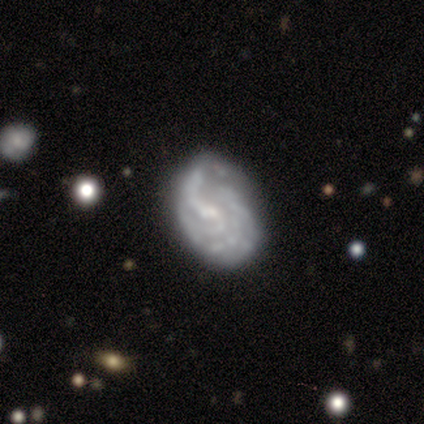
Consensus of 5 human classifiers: A featured or disk galaxy (100%) with no bar (60%), 4 (50%) tight (50%) spiral arms (80%) and a small central bulge (60%).

Vote fractions:
- Smooth or featured? featured or disk: 100% / smooth: 0% / star or artifact: 0%
- Edge-on disk? no: 100% / yes: 0%
- Bar? no: 60% / weak: 40% / strong: 0%
- Spiral arms? yes: 80% / no: 20%
- Spiral winding? tight: 50% / medium: 25% / loose: 25%
- Spiral arm count? 4: 50% / 3: 25% / can't tell: 25% / 1: 0% / 2: 0% / more than 4: 0%
- Bulge size? small: 60% / moderate: 40% / dominant: 0% / large: 0% / none: 0%
- Merging? none: 80% / merger: 20% / minor disturbance: 0% / major disturbance: 0%